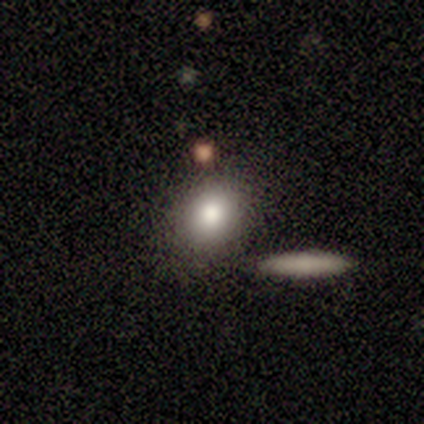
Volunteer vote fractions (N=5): This appears to be a smooth galaxy with no disk features (80%) that is round (75%). Merging: none (100%).